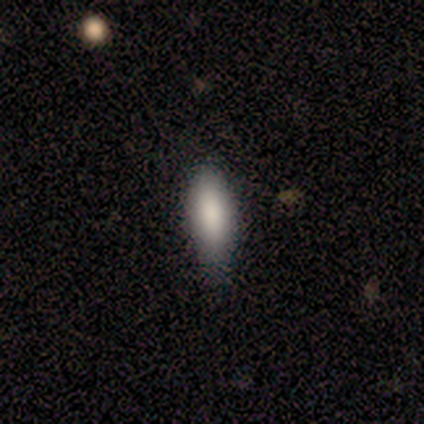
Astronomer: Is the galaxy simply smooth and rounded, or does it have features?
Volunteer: smooth — 100%.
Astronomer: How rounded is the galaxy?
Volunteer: cigar-shaped — 60% (runner-up: in between, 40%).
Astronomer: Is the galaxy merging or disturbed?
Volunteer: none — 60% (runner-up: minor disturbance, 40%).